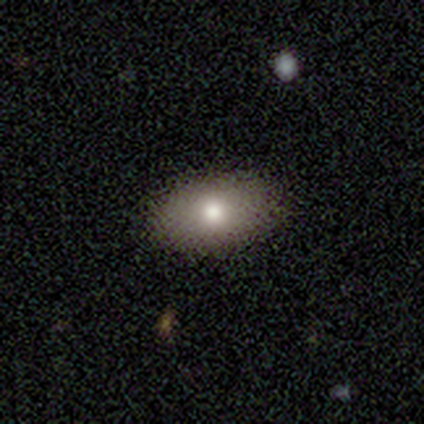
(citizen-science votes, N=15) Smooth or featured?
  - smooth: 73% *
  - featured or disk: 13%
  - star or artifact: 13%
How rounded?
  - in between: 91% *
  - round: 9%
  - cigar-shaped: 0%
Merging?
  - none: 92% *
  - minor disturbance: 8%
  - major disturbance: 0%
  - merger: 0%